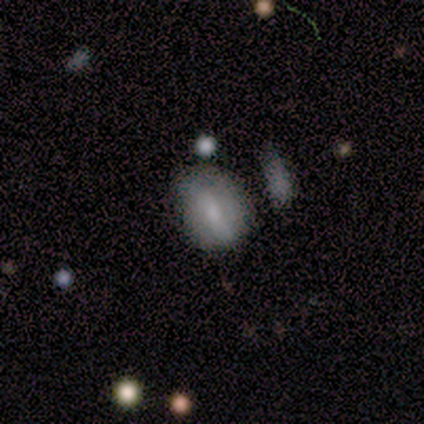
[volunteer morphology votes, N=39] smooth 46%, featured or disk 38%, star or artifact 15%. Down the decision tree: how rounded — in between (78%); merging — none (70%).